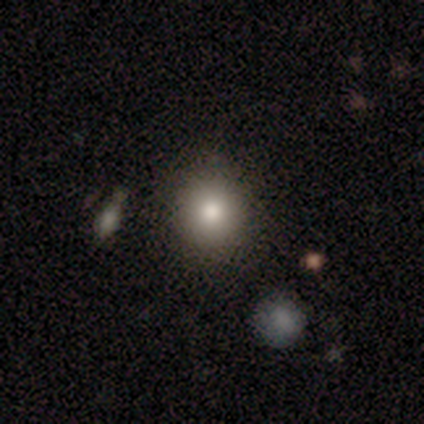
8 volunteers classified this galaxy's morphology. Smooth or featured: smooth — 62% (star or artifact — 25%)
How rounded: round — 80% (in between — 20%)
Merging: none — 83% (minor disturbance — 17%)